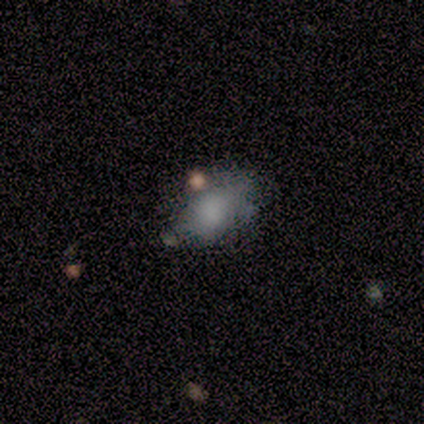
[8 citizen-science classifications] Smooth or featured?
  - smooth: 88% *
  - featured or disk: 12%
  - star or artifact: 0%
How rounded?
  - in between: 86% *
  - round: 14%
  - cigar-shaped: 0%
Merging?
  - minor disturbance: 62% *
  - none: 38%
  - major disturbance: 0%
  - merger: 0%